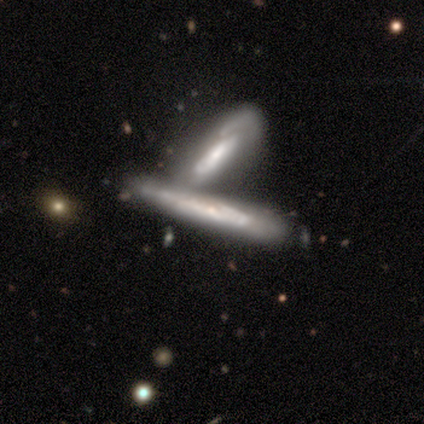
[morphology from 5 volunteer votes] smooth_or_featured: featured or disk (p=0.80) [alt: smooth p=0.20]
disk_edge_on: yes (p=0.75) [alt: no p=0.25]
edge_on_bulge: none (p=1.00)
merging: merger (p=0.80) [alt: minor disturbance p=0.20]